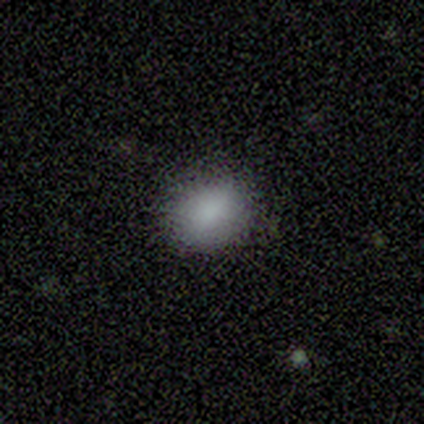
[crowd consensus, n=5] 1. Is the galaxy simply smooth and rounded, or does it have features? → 100% smooth, 0% featured or disk, 0% star or artifact.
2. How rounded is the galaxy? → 80% in between, 20% round, 0% cigar-shaped.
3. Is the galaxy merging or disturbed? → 80% none, 20% minor disturbance, 0% major disturbance, 0% merger.